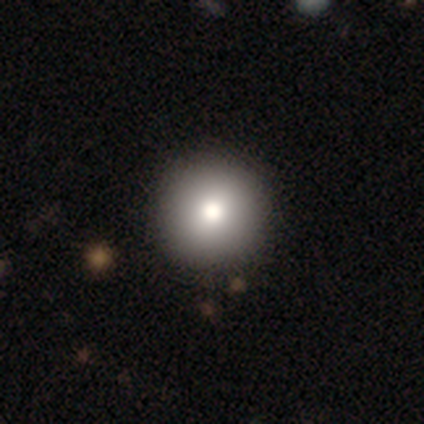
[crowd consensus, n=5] This is clearly a smooth galaxy (80%). How rounded: clearly round (100%). Merging: clearly none (80%).